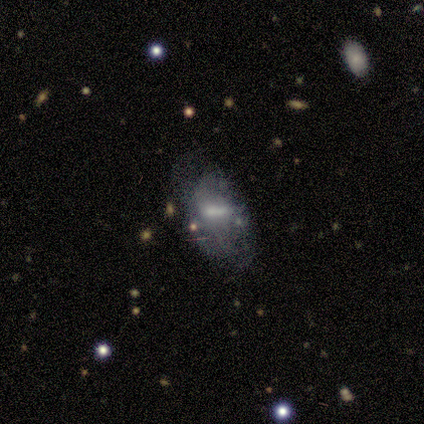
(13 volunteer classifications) Q: Smooth or featured?
A: featured or disk (46%); runner-up: star or artifact (31%)
Q: Edge-on disk?
A: no (100%)
Q: Bar?
A: strong (33%); tied with: weak (33%); no (33%)
Q: Spiral arms?
A: no (100%)
Q: Bulge size?
A: moderate (50%); runner-up: small (33%)
Q: Merging?
A: none (67%); runner-up: minor disturbance (22%)